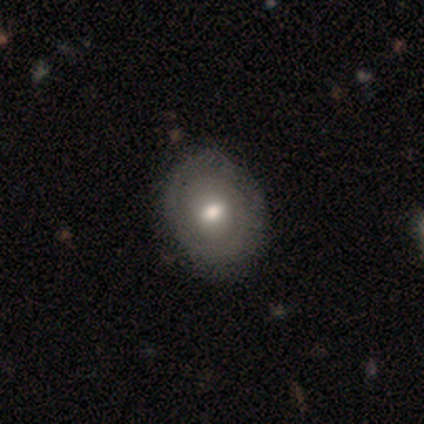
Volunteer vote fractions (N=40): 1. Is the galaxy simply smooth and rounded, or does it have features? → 60% featured or disk, 40% smooth, 0% star or artifact.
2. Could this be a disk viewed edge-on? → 100% no, 0% yes.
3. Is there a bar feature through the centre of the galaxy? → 62% weak, 33% no, 4% strong.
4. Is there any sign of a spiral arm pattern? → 58% yes, 42% no.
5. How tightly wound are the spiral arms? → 71% tight, 14% medium, 14% loose.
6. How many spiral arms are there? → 43% 1, 36% can't tell, 21% 2, 0% 3, 0% 4, 0% more than 4.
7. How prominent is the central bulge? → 71% moderate, 25% small, 4% none, 0% dominant, 0% large.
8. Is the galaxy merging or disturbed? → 60% none, 5% minor disturbance, 2% merger, 0% major disturbance.